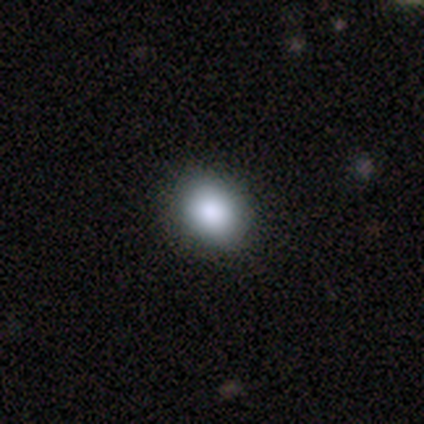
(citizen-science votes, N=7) Morphology: type=smooth (100%); roundness=round (86%); merging=none (86%).